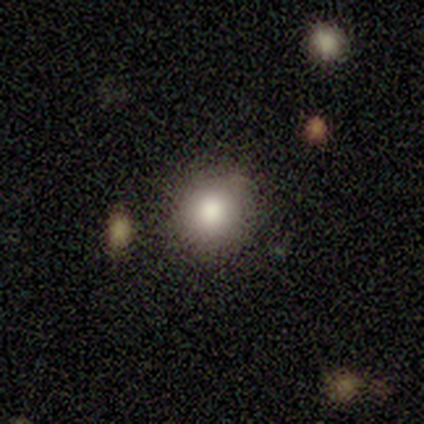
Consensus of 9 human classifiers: smooth-or-featured: smooth: 56% | star or artifact: 33% | featured or disk: 11%
  how-rounded: round: 60% | in between: 40% | cigar-shaped: 0%
  merging: none: 83% | minor disturbance: 17% | major disturbance: 0% | merger: 0%